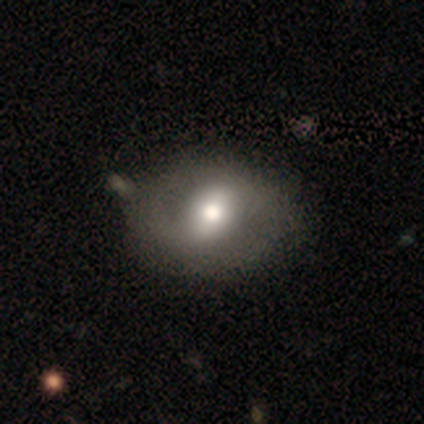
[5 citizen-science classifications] Morphology: type=smooth (60%); roundness=in between (67%); merging=none (80%).